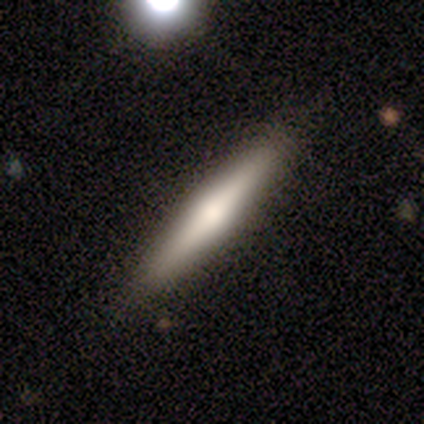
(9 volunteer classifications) Smooth or featured: featured or disk — 56% (smooth — 44%)
Edge-on disk: yes — 80% (no — 20%)
Edge-on bulge: rounded — 100%
Merging: none — 100%